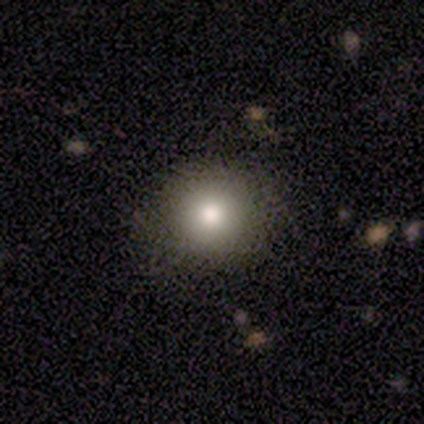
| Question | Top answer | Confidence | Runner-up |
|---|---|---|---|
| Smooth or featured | smooth | 80% | featured or disk (17%) |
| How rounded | round | 82% | in between (18%) |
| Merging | none | 95% | minor disturbance (5%) |